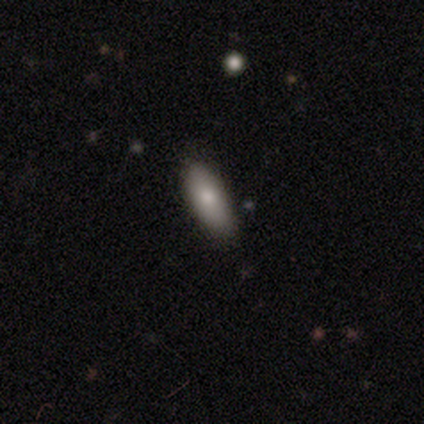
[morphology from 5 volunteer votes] smooth-or-featured: smooth: 80% | featured or disk: 20% | star or artifact: 0%
  how-rounded: in between: 75% | cigar-shaped: 25% | round: 0%
  merging: none: 100% | minor disturbance: 0% | major disturbance: 0% | merger: 0%